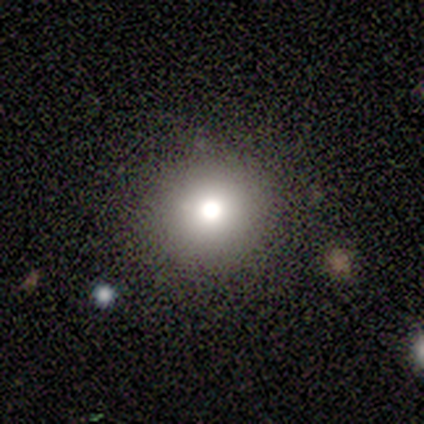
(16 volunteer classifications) A smooth galaxy with no disk features (50%) that is round (88%).

Vote fractions:
- Smooth or featured? smooth: 50% / featured or disk: 25% / star or artifact: 25%
- How rounded? round: 88% / in between: 12% / cigar-shaped: 0%
- Merging? none: 92% / minor disturbance: 8% / major disturbance: 0% / merger: 0%